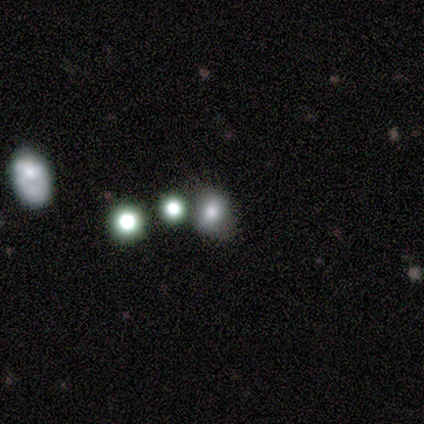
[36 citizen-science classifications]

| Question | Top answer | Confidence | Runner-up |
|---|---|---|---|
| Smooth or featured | smooth | 69% | star or artifact (31%) |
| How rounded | round | 60% | in between (40%) |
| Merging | none | 48% | merger (28%) |